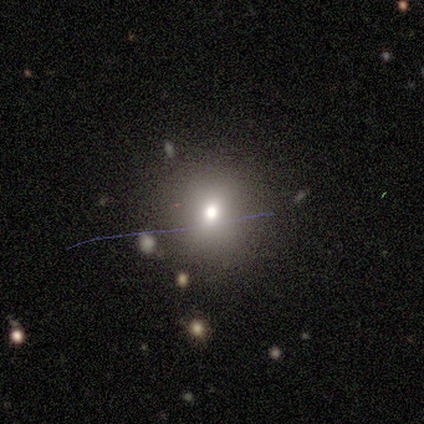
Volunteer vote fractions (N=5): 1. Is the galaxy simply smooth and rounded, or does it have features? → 100% smooth, 0% featured or disk, 0% star or artifact.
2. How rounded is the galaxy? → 100% round, 0% in between, 0% cigar-shaped.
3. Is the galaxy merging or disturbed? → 100% none, 0% minor disturbance, 0% major disturbance, 0% merger.